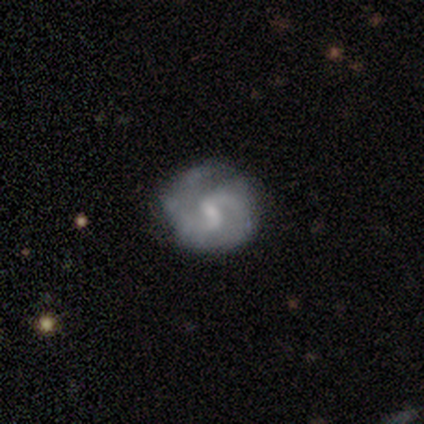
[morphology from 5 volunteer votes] smooth_or_featured: featured or disk (p=0.80) [alt: smooth p=0.20]
disk_edge_on: no (p=1.00)
bar: weak (p=1.00)
has_spiral_arms: yes (p=0.75) [alt: no p=0.25]
spiral_winding: medium (p=1.00)
spiral_arm_count: can't tell (p=0.67) [alt: 2 p=0.33]
bulge_size: small (p=0.75) [alt: moderate p=0.25]
merging: minor disturbance (p=0.60) [alt: none p=0.40]